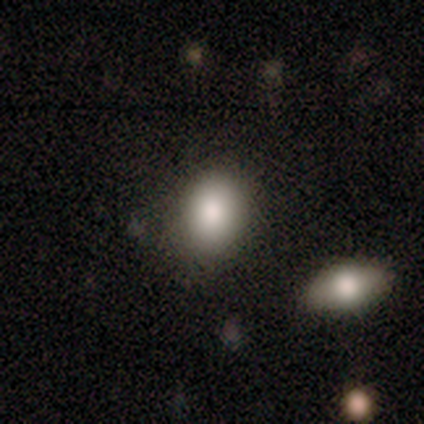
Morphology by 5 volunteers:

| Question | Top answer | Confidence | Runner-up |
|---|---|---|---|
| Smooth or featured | smooth | 100% | — |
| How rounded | in between | 60% | round (40%) |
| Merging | none | 80% | minor disturbance (20%) |